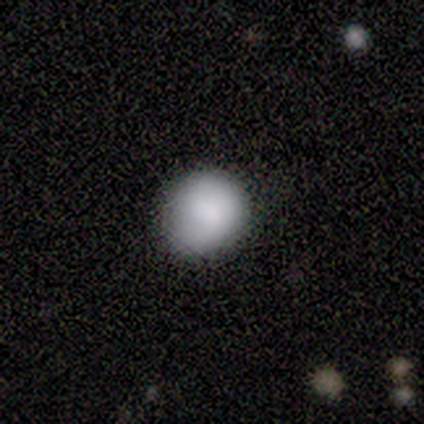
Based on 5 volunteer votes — smooth-or-featured: smooth: 100% | featured or disk: 0% | star or artifact: 0%
  how-rounded: round: 100% | in between: 0% | cigar-shaped: 0%
  merging: minor disturbance: 60% | none: 40% | major disturbance: 0% | merger: 0%